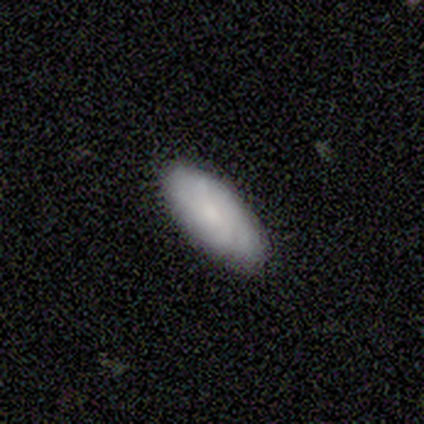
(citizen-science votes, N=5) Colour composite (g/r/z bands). It shows a smooth galaxy with no disk features (80%) that is in between round and cigar-shaped (75%). Merging: none (80%).